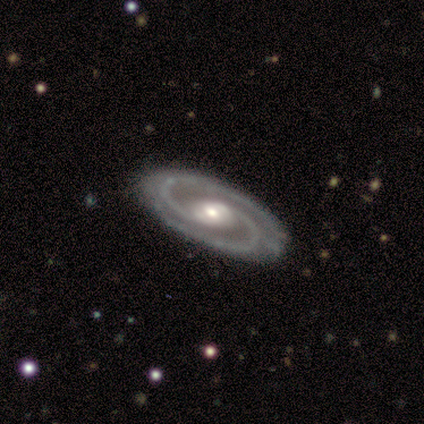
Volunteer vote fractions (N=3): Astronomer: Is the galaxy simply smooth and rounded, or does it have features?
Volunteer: featured or disk — 100%.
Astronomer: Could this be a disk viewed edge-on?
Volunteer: no — 100%.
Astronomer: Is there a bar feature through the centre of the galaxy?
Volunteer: no — 67%.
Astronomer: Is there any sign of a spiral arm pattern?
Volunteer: yes — 100%.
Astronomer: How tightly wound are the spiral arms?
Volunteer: tight — 67%.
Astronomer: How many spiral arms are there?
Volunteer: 2 — 100%.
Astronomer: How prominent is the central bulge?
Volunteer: moderate — 67%.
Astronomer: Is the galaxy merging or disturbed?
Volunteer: none — 100%.